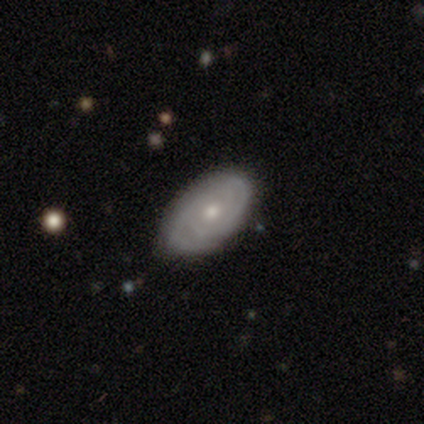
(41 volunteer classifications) Smooth or featured? 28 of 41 (68%) said featured or disk. Edge-on disk? 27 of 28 (96%) said no. Bar? 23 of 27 (85%) said no. Spiral arms? 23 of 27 (85%) said yes. Spiral winding? 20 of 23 (87%) said tight. Spiral arm count? 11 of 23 (48%) said 2. Bulge size? 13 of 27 (48%, tied with small) said moderate. Merging? 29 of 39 (74%) said none.